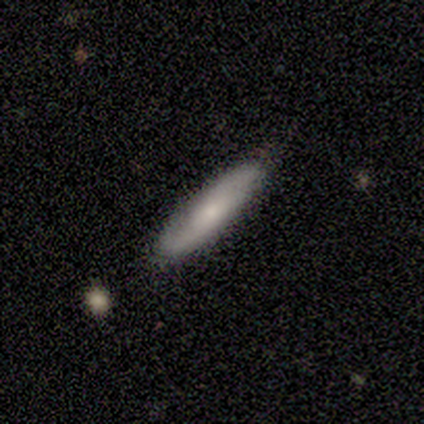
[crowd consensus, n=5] This appears to be a smooth galaxy with no disk features (80%) that is cigar-shaped (100%). Merging: none (100%).